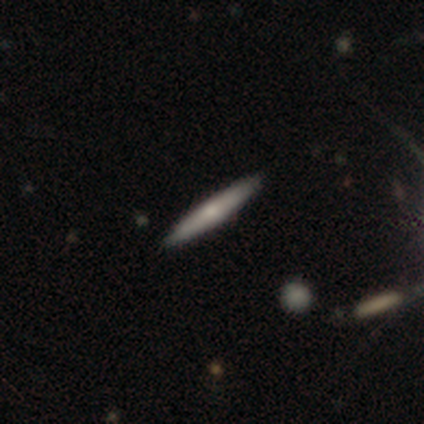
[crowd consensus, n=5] Smooth or featured: featured or disk — 60% (smooth — 40%)
Edge-on disk: yes — 100%
Edge-on bulge: rounded — 100%
Merging: none — 100%